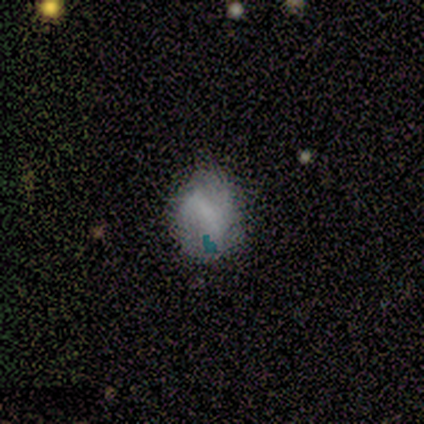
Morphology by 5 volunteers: Smooth or featured: smooth — 60% (featured or disk — 40%)
How rounded: in between — 100%
Merging: minor disturbance — 60% (none — 20%)